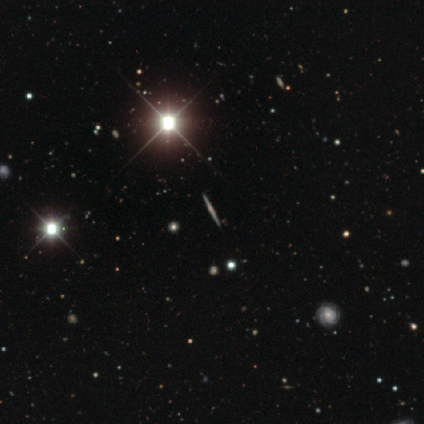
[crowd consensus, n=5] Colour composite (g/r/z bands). It shows a star or artifact, not a galaxy (60%).